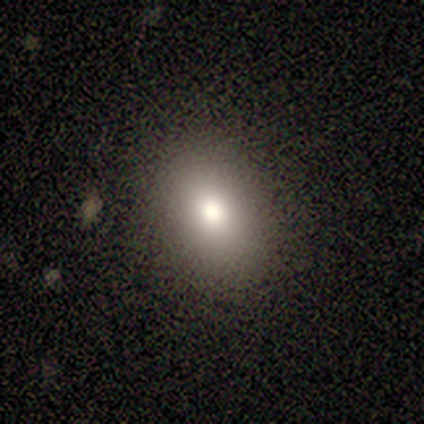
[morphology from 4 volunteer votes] smooth-or-featured: smooth: 100% | featured or disk: 0% | star or artifact: 0%
  how-rounded: in between: 75% | round: 25% | cigar-shaped: 0%
  merging: none: 75% | minor disturbance: 25% | major disturbance: 0% | merger: 0%